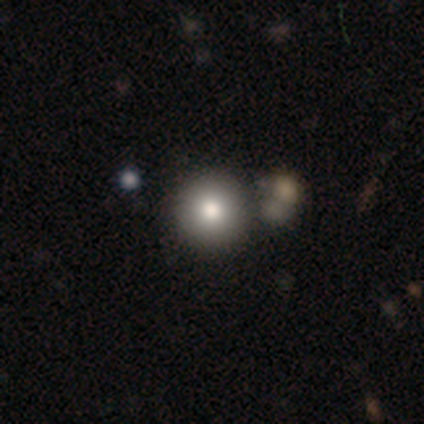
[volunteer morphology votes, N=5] Volunteers were most divided on "merging" (2-way tie): none: 50%, merger: 50%, minor disturbance: 0%, major disturbance: 0%. More confident: how rounded — round (67%); smooth or featured — smooth (60%).